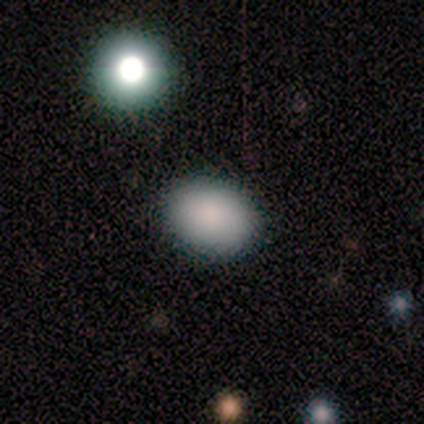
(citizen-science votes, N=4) smooth-or-featured: smooth: 100% | featured or disk: 0% | star or artifact: 0%
  how-rounded: round: 50% (tied) | in between: 50% (tied) | cigar-shaped: 0%
  merging: none: 100% | minor disturbance: 0% | major disturbance: 0% | merger: 0%